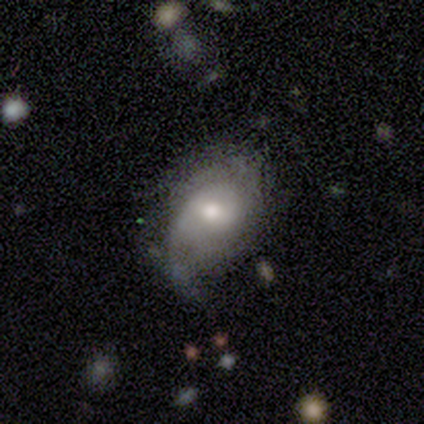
Smooth or featured: featured or disk — 76% (smooth — 16%)
Edge-on disk: no — 93% (yes — 7%)
Bar: weak — 50% (no — 42%)
Spiral arms: yes — 81% (no — 19%)
Spiral winding: medium — 43% (tight — 33%)
Spiral arm count: 2 — 43% (can't tell — 38%)
Bulge size: moderate — 73% (small — 15%)
Merging: minor disturbance — 47% (none — 35%)